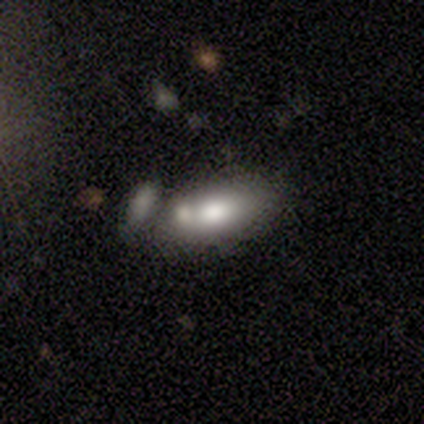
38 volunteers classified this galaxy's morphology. Smooth or featured: smooth — 74% (featured or disk — 26%)
How rounded: in between — 93% (cigar-shaped — 7%)
Merging: merger — 66% (none — 24%)